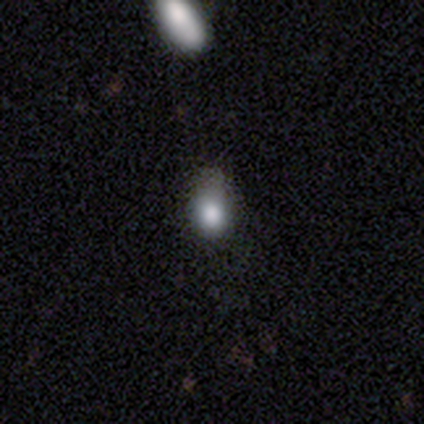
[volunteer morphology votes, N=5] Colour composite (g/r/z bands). It shows a smooth galaxy with no disk features (60%) that is round (67%). Merging: none (50%, tied with minor disturbance).